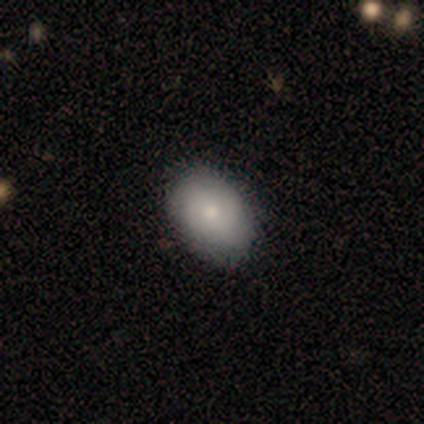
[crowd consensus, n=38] A smooth galaxy with no disk features (89%) that is in between round and cigar-shaped (94%). Merging: none (55%).